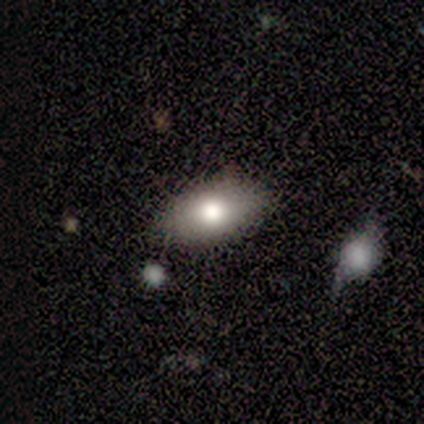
smooth-or-featured: smooth: 87% | featured or disk: 13% | star or artifact: 0%
  how-rounded: in between: 88% | round: 6% | cigar-shaped: 6%
  merging: none: 76% | minor disturbance: 16% | merger: 5% | major disturbance: 3%